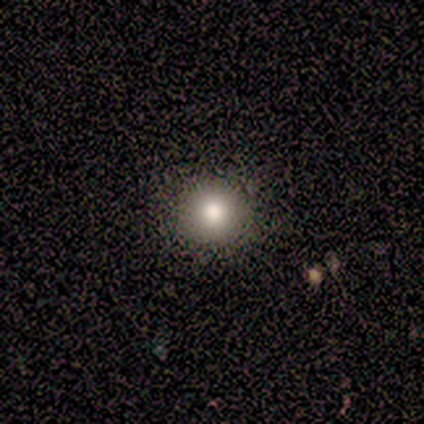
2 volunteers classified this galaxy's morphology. Smooth or featured? 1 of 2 (50%, tied with star or artifact) said featured or disk. Edge-on disk? 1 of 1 (100%) said no. Bar? 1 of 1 (100%) said strong. Spiral arms? 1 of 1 (100%) said no. Bulge size? 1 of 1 (100%) said dominant. Merging? 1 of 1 (100%) said none.